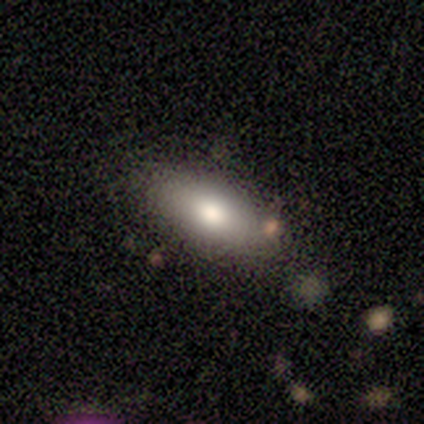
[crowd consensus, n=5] smooth-or-featured: smooth: 100% | featured or disk: 0% | star or artifact: 0%
  how-rounded: in between: 100% | round: 0% | cigar-shaped: 0%
  merging: none: 100% | minor disturbance: 0% | major disturbance: 0% | merger: 0%